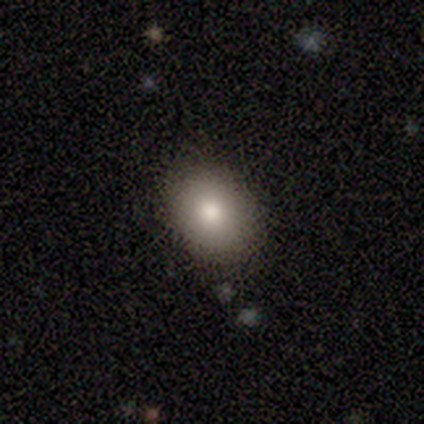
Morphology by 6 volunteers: smooth_or_featured: smooth (p=0.67) [alt: featured or disk p=0.17]
how_rounded: round (p=0.75) [alt: in between p=0.25]
merging: none (p=1.00)